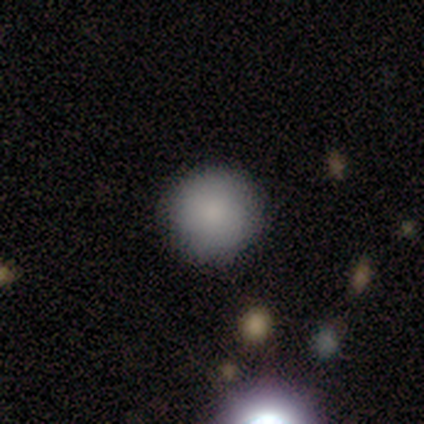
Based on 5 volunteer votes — smooth_or_featured: smooth (p=0.80) [alt: star or artifact p=0.20]
how_rounded: round (p=1.00)
merging: none (p=1.00)